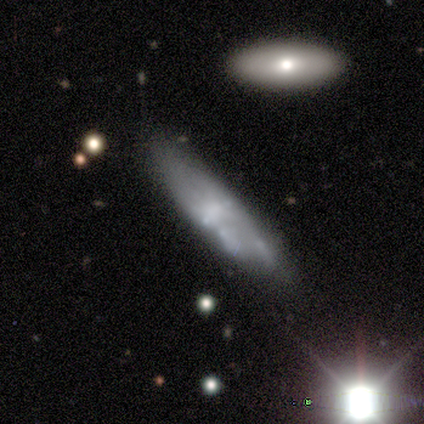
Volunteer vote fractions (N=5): Smooth or featured? smooth (60%)
How rounded? in between (67%)
Merging? none (60%)